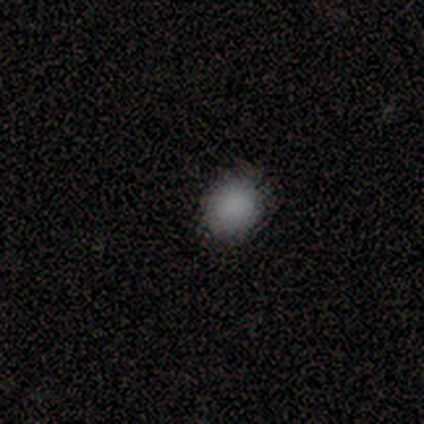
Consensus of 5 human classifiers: smooth 100%, featured or disk 0%, star or artifact 0%. Down the decision tree: how rounded — round (60%); merging — none (100%).